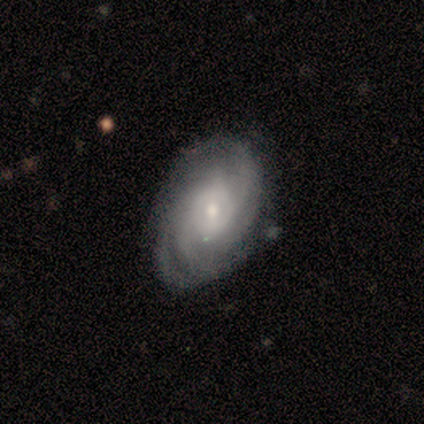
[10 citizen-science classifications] A featured or disk galaxy (80%) with no bar (50%), 3 (38%, tied with can't tell) tight (75%) spiral arms (100%) and a small central bulge (62%). Merging: none (90%).